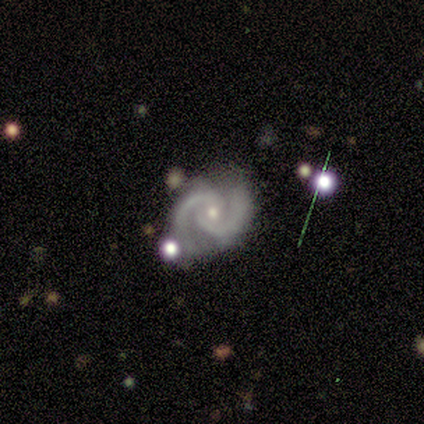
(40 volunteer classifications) featured or disk 98%, smooth 2%, star or artifact 0%. Down the decision tree: edge-on disk — no (95%); bar — no (68%); spiral arms — yes (100%); spiral arm count — 2 (100%); spiral winding — tight (49%); bulge size — small (76%); merging — none (65%).